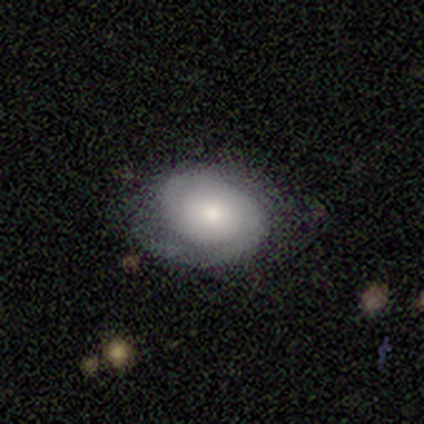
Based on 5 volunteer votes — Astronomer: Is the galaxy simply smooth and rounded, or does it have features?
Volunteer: featured or disk — 60%.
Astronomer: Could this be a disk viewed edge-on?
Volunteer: yes — 67%.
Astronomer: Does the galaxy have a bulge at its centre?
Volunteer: none — 50%, tied with rounded at 50%.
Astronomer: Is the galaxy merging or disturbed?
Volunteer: none — 50%.